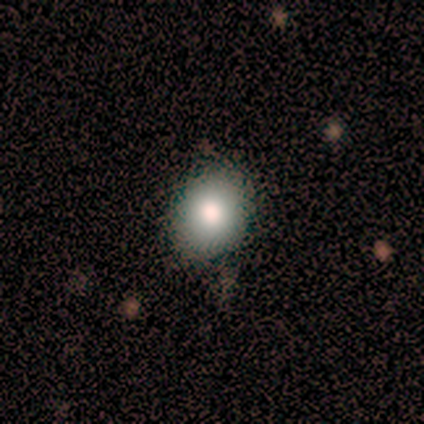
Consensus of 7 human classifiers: A smooth galaxy with no disk features (57%) that is round (50%, tied with in between).

Vote fractions:
- Smooth or featured? smooth: 57% / star or artifact: 29% / featured or disk: 14%
- How rounded? round: 50% (tied) / in between: 50% (tied) / cigar-shaped: 0%
- Merging? none: 60% / minor disturbance: 40% / major disturbance: 0% / merger: 0%